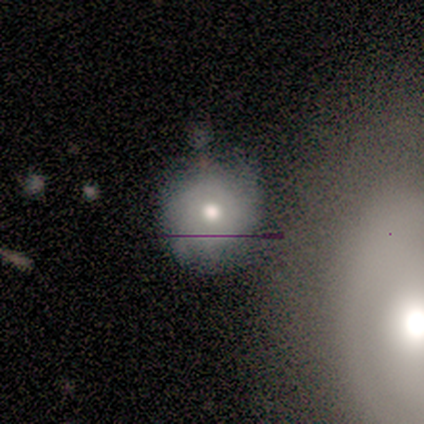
This is likely a smooth galaxy (60%). How rounded: clearly round (100%). Merging: clearly none (80%).